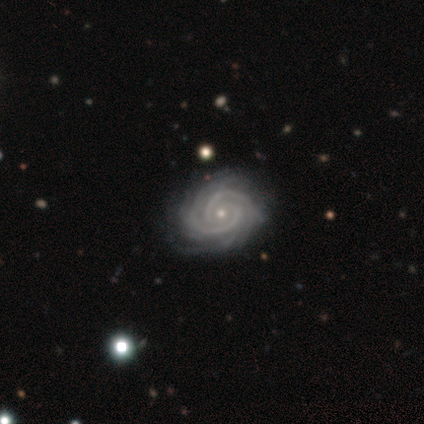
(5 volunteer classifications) This is clearly a featured or disk galaxy (100%). It is clearly not viewed edge-on (80%). Bar: possibly strong (50%). Spiral arm pattern: clearly yes (100%). Spiral arm count: possibly 2 (50%, tied with can't tell). Spiral winding: clearly tight (100%). Central bulge: clearly small (100%). Merging: clearly none (80%).